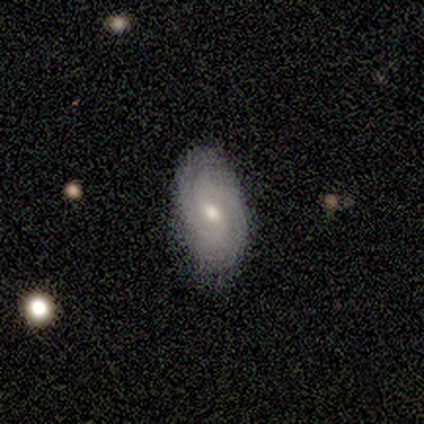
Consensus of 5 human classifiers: Smooth or featured?
  - featured or disk: 80% *
  - smooth: 20%
  - star or artifact: 0%
Edge-on disk?
  - no: 100% *
  - yes: 0%
Bar?
  - weak: 75% *
  - no: 25%
  - strong: 0%
Spiral arms?
  - yes: 100% *
  - no: 0%
Spiral winding?
  - tight: 75% *
  - medium: 25%
  - loose: 0%
Spiral arm count?
  - 2: 75% *
  - 3: 25%
  - 1: 0%
  - 4: 0%
  - more than 4: 0%
  - can't tell: 0%
Bulge size?
  - moderate: 75% *
  - small: 25%
  - dominant: 0%
  - large: 0%
  - none: 0%
Merging?
  - none: 80% *
  - minor disturbance: 20%
  - major disturbance: 0%
  - merger: 0%